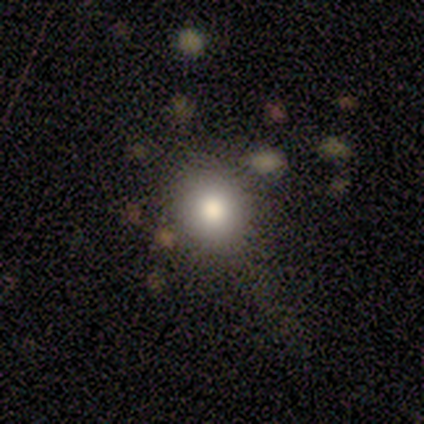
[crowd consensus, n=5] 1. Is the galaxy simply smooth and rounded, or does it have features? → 100% smooth, 0% featured or disk, 0% star or artifact.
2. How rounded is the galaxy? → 100% round, 0% in between, 0% cigar-shaped.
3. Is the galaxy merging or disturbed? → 100% none, 0% minor disturbance, 0% major disturbance, 0% merger.